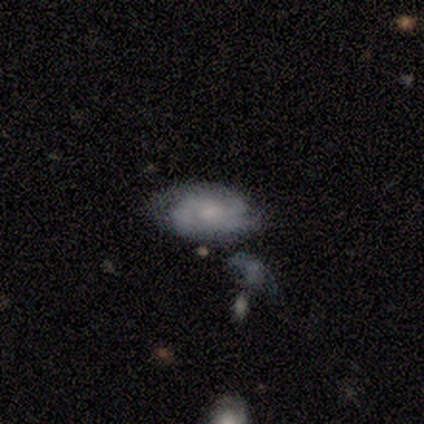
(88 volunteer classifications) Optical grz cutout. It shows a featured or disk galaxy (66%) with no bar (74%), 2 (69%) tight (52%) spiral arms (84%) and a moderate central bulge (44%). Merging: none (52%).